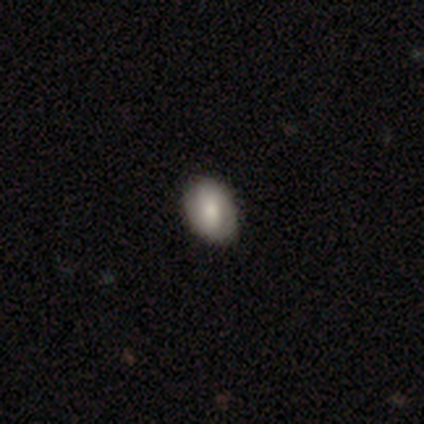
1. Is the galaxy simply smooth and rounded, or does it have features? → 40% smooth (tied), 40% featured or disk (tied), 20% star or artifact.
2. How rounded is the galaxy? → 100% in between, 0% round, 0% cigar-shaped.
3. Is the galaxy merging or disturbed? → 100% none, 0% minor disturbance, 0% major disturbance, 0% merger.